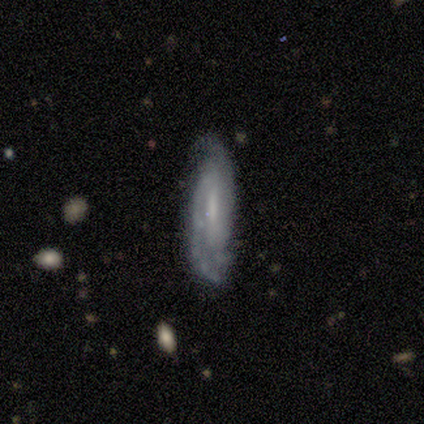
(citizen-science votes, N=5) This is clearly a featured or disk galaxy (100%). It is clearly not viewed edge-on (100%). Bar: likely no (60%). Spiral arm pattern: clearly yes (100%). Spiral arm count: likely 2 (60%). Spiral winding: likely medium (60%). Central bulge: marginally moderate (40%, tied with small). Merging: likely minor disturbance (60%).